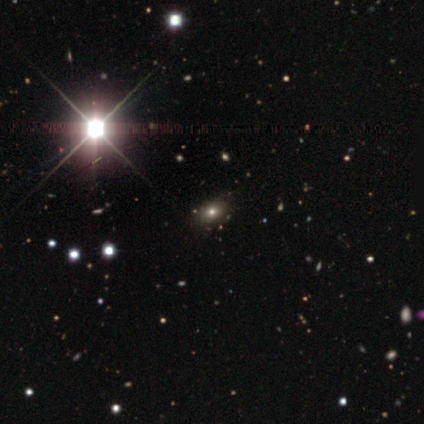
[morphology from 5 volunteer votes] This appears to be a featured or disk galaxy (40%, tied with star or artifact) viewed edge-on (50%, tied with no) with a boxy central bulge (100%). Merging: minor disturbance (67%).